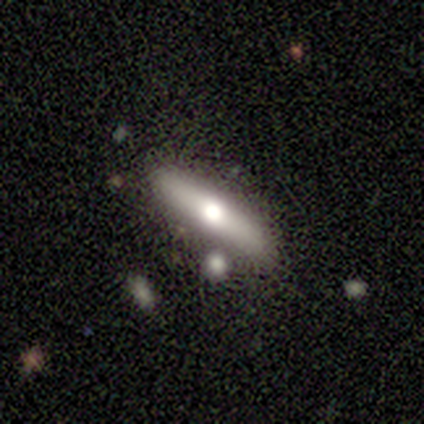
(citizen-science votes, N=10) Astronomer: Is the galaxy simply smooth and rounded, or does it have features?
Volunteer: smooth — 70%.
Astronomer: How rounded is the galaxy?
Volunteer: cigar-shaped — 71%.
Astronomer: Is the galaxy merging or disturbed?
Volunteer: none — 70%.